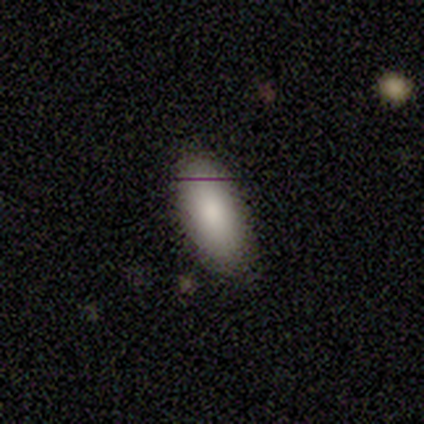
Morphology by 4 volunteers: Smooth or featured: smooth — 75% (star or artifact — 25%)
How rounded: in between — 100%
Merging: none — 67% (major disturbance — 33%)